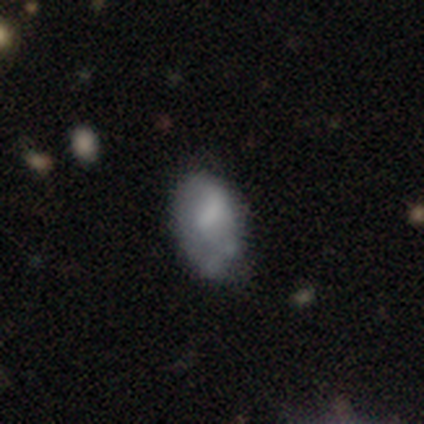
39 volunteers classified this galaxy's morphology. smooth-or-featured: smooth: 62% | featured or disk: 33% | star or artifact: 5%
  how-rounded: in between: 100% | round: 0% | cigar-shaped: 0%
  merging: minor disturbance: 43% | none: 35% | merger: 14% | major disturbance: 8%